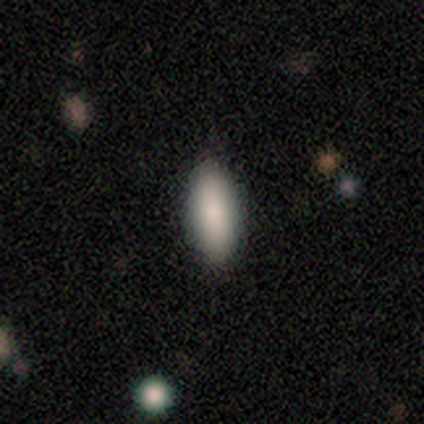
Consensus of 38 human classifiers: A smooth galaxy with no disk features (100%) that is in between round and cigar-shaped (66%).

Vote fractions:
- Smooth or featured? smooth: 100% / featured or disk: 0% / star or artifact: 0%
- How rounded? in between: 66% / cigar-shaped: 34% / round: 0%
- Merging? none: 61% / minor disturbance: 37% / major disturbance: 3% / merger: 0%